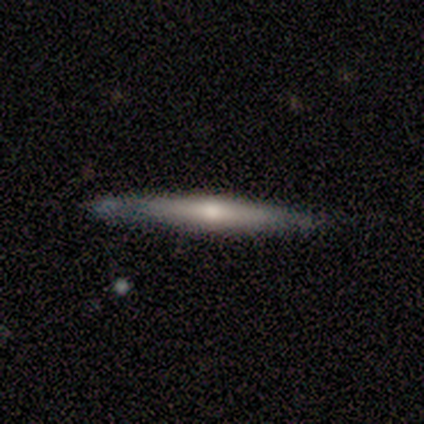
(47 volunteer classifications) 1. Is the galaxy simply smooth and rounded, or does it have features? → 55% featured or disk, 40% smooth, 4% star or artifact.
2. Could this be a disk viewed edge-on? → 96% yes, 4% no.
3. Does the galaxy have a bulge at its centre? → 80% rounded, 16% none, 4% boxy.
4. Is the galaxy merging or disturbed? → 84% none, 11% minor disturbance, 2% major disturbance, 2% merger.